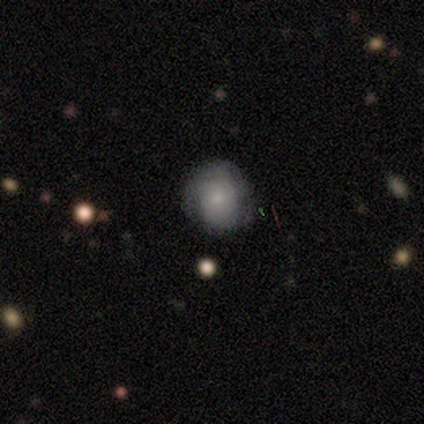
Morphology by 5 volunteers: Smooth or featured: smooth — 60% (featured or disk — 40%)
How rounded: round — 67% (in between — 33%)
Merging: none — 80% (minor disturbance — 20%)